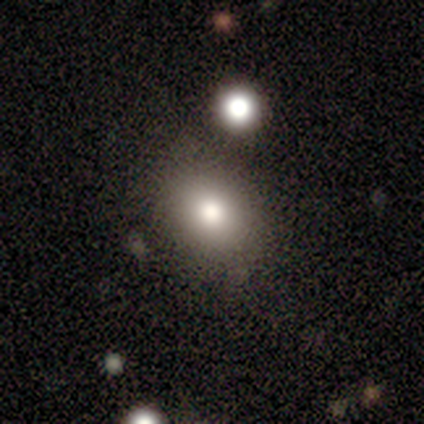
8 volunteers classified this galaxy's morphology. This is likely a smooth galaxy (75%). How rounded: likely in between (67%). Merging: clearly none (83%).